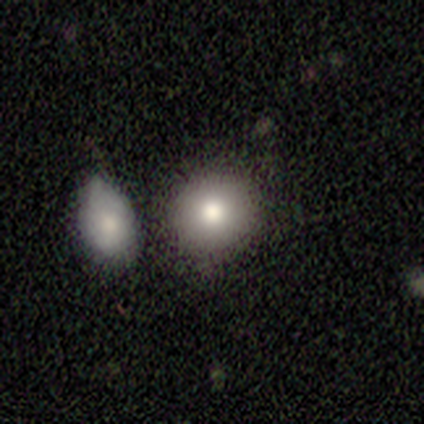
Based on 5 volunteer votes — This appears to be a smooth galaxy with no disk features (80%) that is round (75%). Merging: none (50%).